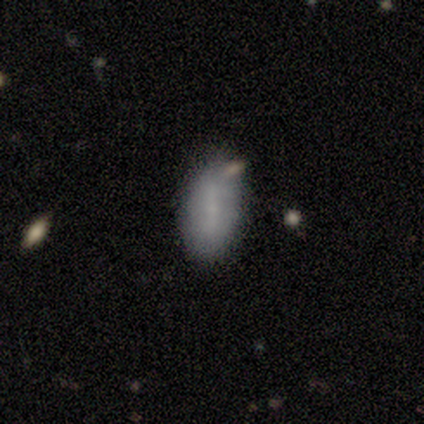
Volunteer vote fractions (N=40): Smooth or featured? smooth (60%)
How rounded? in between (100%)
Merging? none (47%)